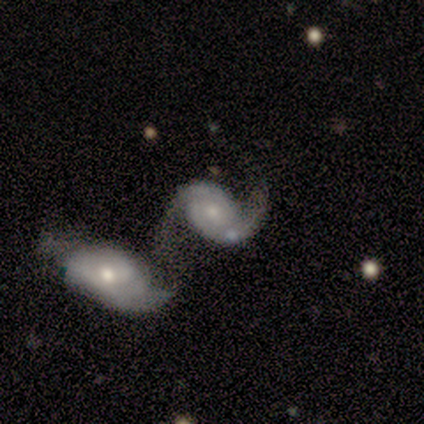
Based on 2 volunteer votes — Overall: smooth (50%, tied with featured or disk). How rounded: in between (100%). Merging: merger (100%).